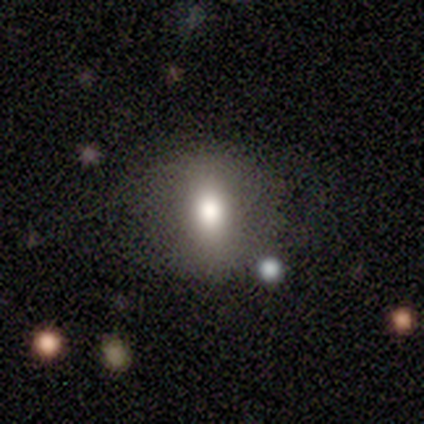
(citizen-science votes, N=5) smooth 60%, featured or disk 20%, star or artifact 20%. Down the decision tree: how rounded — round (67%); merging — none (75%).